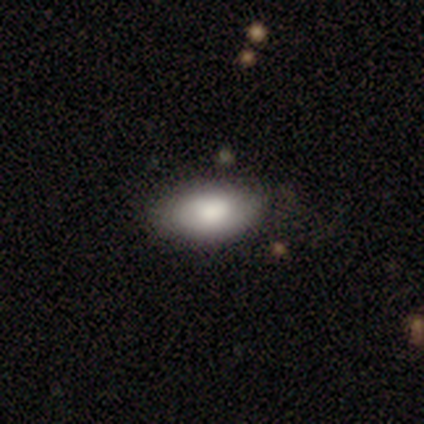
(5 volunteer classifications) Smooth or featured? 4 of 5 (80%) said smooth. How rounded? 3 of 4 (75%) said in between. Merging? 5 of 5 (100%) said none.